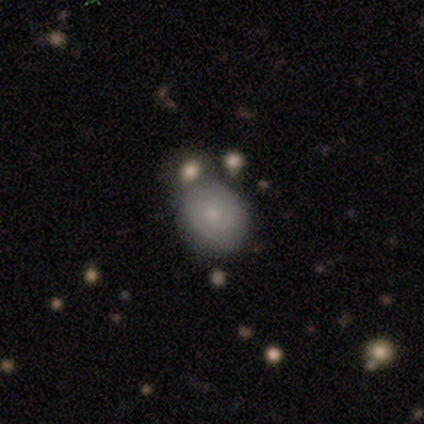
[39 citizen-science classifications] Smooth or featured: featured or disk — 56% (smooth — 41%)
Edge-on disk: no — 95% (yes — 5%)
Bar: no — 90% (weak — 10%)
Spiral arms: yes — 76% (no — 24%)
Spiral winding: tight — 56% (medium — 44%)
Spiral arm count: 2 — 50% (can't tell — 44%)
Bulge size: small — 62% (moderate — 29%)
Merging: none — 50% (minor disturbance — 24%)